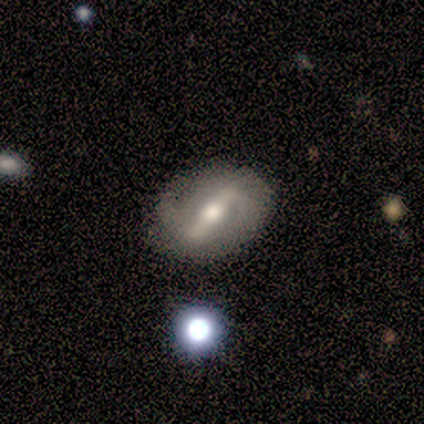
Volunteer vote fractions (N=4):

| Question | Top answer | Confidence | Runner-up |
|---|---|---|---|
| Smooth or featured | featured or disk | 75% | smooth (25%) |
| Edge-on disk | no | 100% | — |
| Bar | weak | 67% | no (33%) |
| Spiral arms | yes | 100% | — |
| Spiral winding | loose | 67% | tight (33%) |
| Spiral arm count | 1 | 33% | tied: 2 (33%), can't tell (33%) |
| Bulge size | moderate | 67% | small (33%) |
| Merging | none | 50% | minor disturbance (25%) |